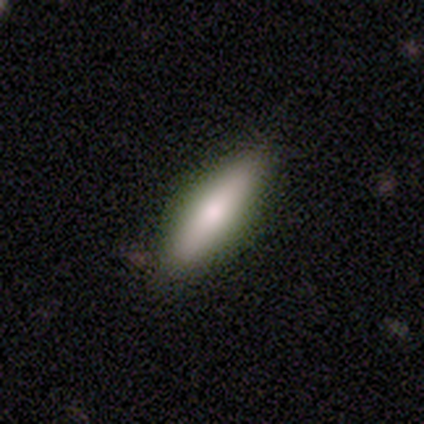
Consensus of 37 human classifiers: Smooth or featured?
  - smooth: 70% *
  - featured or disk: 27%
  - star or artifact: 3%
How rounded?
  - cigar-shaped: 54% *
  - in between: 46%
  - round: 0%
Merging?
  - none: 89% *
  - minor disturbance: 11%
  - major disturbance: 0%
  - merger: 0%